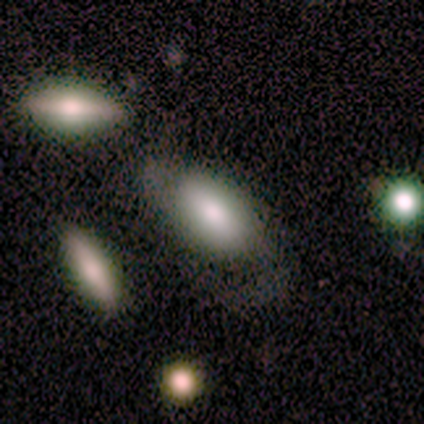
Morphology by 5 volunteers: This appears to be a smooth galaxy with no disk features (100%) that is in between round and cigar-shaped (100%). Merging: minor disturbance (40%, tied with major disturbance).